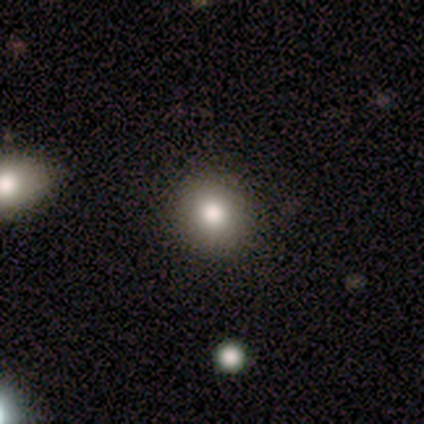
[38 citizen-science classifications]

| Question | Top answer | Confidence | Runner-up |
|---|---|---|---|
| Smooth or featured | smooth | 82% | star or artifact (16%) |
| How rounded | round | 84% | in between (16%) |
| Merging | none | 53% | minor disturbance (6%) |